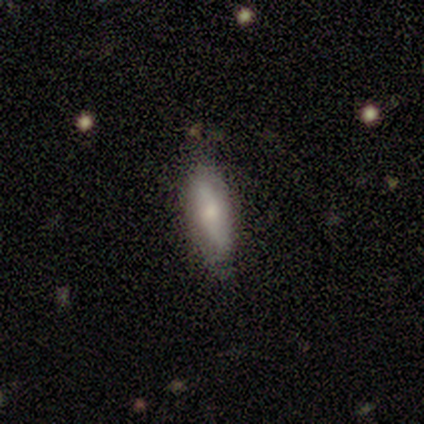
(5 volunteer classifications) A smooth galaxy with no disk features (60%) that is in between round and cigar-shaped (67%).

Vote fractions:
- Smooth or featured? smooth: 60% / featured or disk: 20% / star or artifact: 20%
- How rounded? in between: 67% / cigar-shaped: 33% / round: 0%
- Merging? none: 75% / minor disturbance: 25% / major disturbance: 0% / merger: 0%